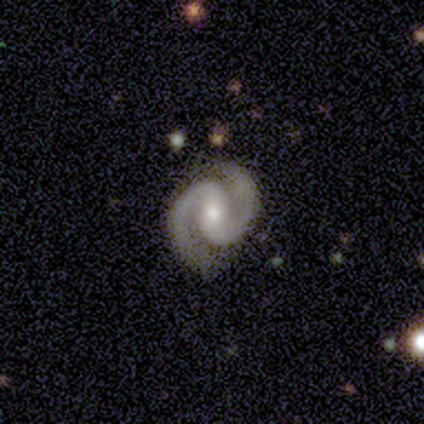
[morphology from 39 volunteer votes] smooth_or_featured: featured or disk (p=0.85) [alt: star or artifact p=0.13]
disk_edge_on: no (p=1.00)
bar: weak (p=0.42) [alt: no p=0.39]
has_spiral_arms: yes (p=0.97) [alt: no p=0.03]
spiral_winding: tight (p=0.53) [alt: medium p=0.44]
spiral_arm_count: 2 (p=0.97) [alt: 1 p=0.03]
bulge_size: moderate (p=0.55) [alt: small p=0.42]
merging: none (p=0.85) [alt: minor disturbance p=0.09]